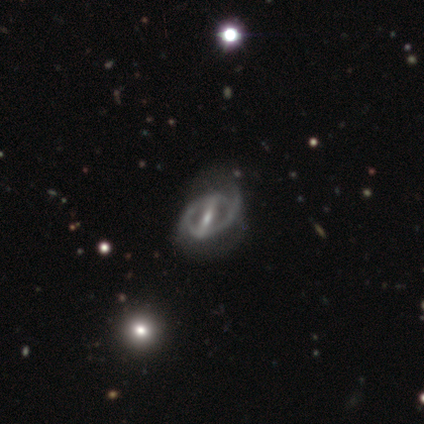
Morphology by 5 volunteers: Smooth or featured? 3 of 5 (60%) said featured or disk. Edge-on disk? 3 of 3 (100%) said no. Bar? 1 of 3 (33%, tied with weak and no) said strong. Spiral arms? 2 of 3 (67%) said no. Bulge size? 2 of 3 (67%) said small. Merging? 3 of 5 (60%) said none.